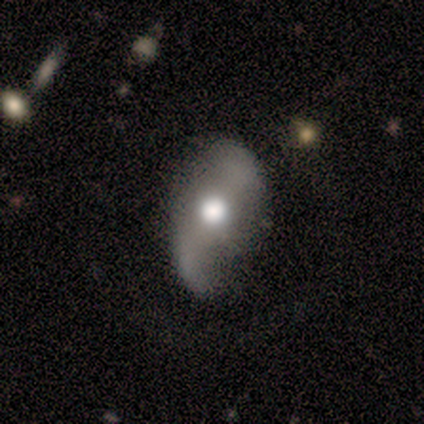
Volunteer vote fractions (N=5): smooth-or-featured: smooth: 40% (tied) | featured or disk: 40% (tied) | star or artifact: 20%
  how-rounded: in between: 100% | round: 0% | cigar-shaped: 0%
  merging: none: 50% | minor disturbance: 25% | major disturbance: 25% | merger: 0%